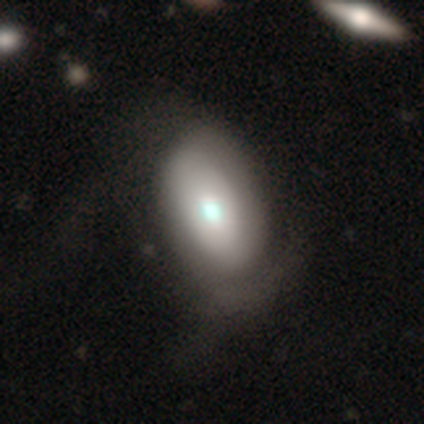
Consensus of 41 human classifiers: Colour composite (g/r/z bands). It shows a featured or disk galaxy (54%) with no bar (80%), 2 (40%, tied with can't tell) loose (40%) spiral arms (50%, tied with no) and a moderate central bulge (55%). Merging: none (33%).